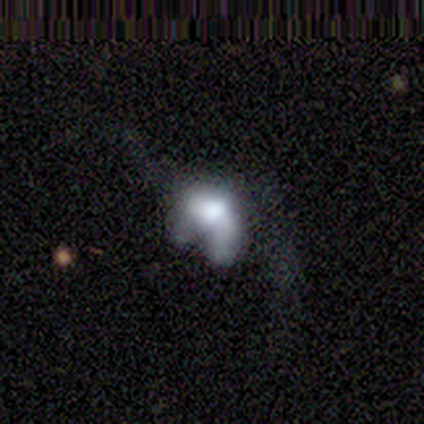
This appears to be a smooth galaxy with no disk features (100%) that is in between round and cigar-shaped (100%). Merging: minor disturbance (50%, tied with major disturbance).